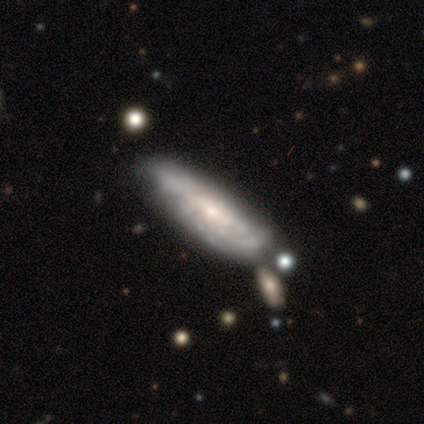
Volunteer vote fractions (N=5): Overall: featured or disk (100%). Edge-on disk: no (60%; yes 40%). Bar: no (67%; weak 33%). Spiral arms: no (67%; yes 33%). Bulge size: small (100%). Merging: none (40%, tied with minor disturbance).